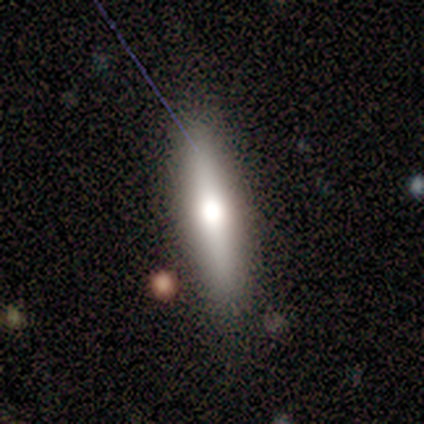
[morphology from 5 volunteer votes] Q: Smooth or featured?
A: smooth (60%); runner-up: featured or disk (40%)
Q: How rounded?
A: cigar-shaped (100%)
Q: Merging?
A: none (100%)